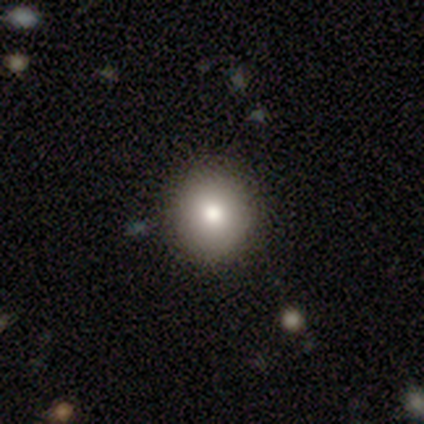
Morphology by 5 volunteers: Smooth or featured? 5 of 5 (100%) said smooth. How rounded? 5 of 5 (100%) said round. Merging? 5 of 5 (100%) said none.